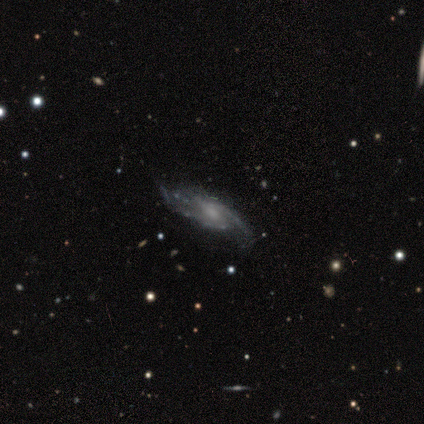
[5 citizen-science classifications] Smooth or featured: featured or disk — 100%
Edge-on disk: no — 100%
Bar: weak — 60% (no — 40%)
Spiral arms: yes — 100%
Spiral winding: medium — 60% (tight — 20%)
Spiral arm count: 2 — 80% (can't tell — 20%)
Bulge size: moderate — 60% (small — 40%)
Merging: none — 60% (minor disturbance — 40%)